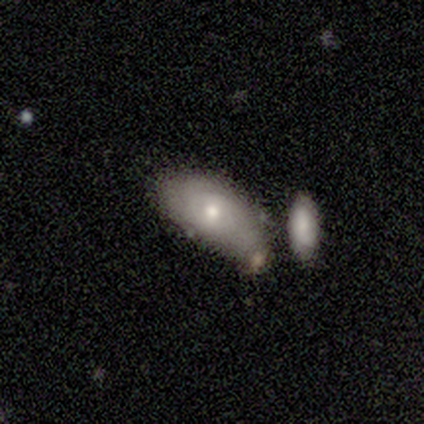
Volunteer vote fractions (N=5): This appears to be a smooth galaxy with no disk features (60%) that is in between round and cigar-shaped (100%). Merging: none (40%, tied with merger).